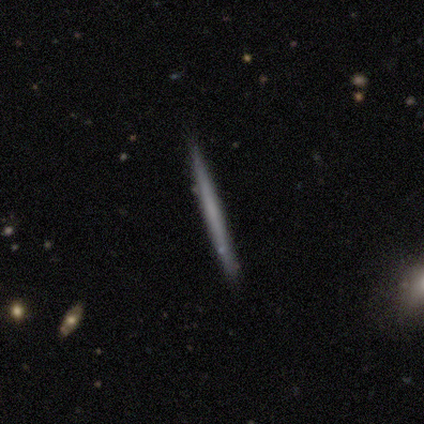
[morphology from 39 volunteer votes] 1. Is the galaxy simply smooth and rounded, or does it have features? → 46% featured or disk, 44% smooth, 10% star or artifact.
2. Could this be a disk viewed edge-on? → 100% yes, 0% no.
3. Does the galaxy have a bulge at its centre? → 94% none, 6% rounded, 0% boxy.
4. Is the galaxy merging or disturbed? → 89% none, 6% major disturbance, 6% merger, 0% minor disturbance.